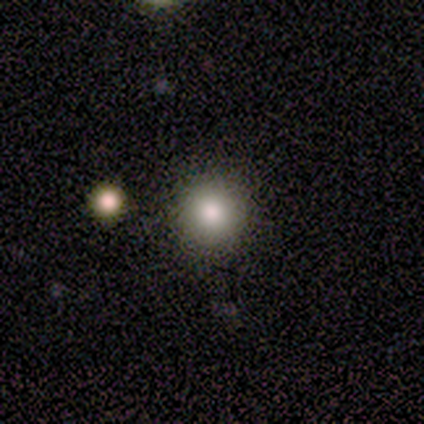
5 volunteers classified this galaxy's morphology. This is clearly a smooth galaxy (100%). How rounded: clearly round (80%). Merging: clearly none (100%).